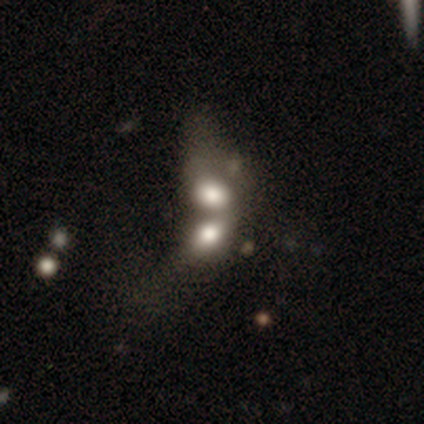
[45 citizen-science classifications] Morphology: type=smooth (53%); roundness=in between (83%); merging=merger (84%).